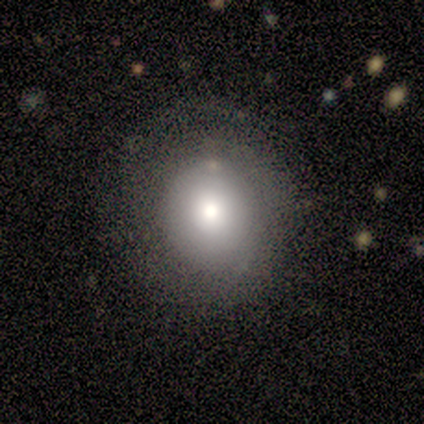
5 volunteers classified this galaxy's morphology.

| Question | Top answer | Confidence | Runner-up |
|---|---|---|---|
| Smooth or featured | smooth | 60% | featured or disk (20%) |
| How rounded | round | 100% | — |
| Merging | none | 100% | — |